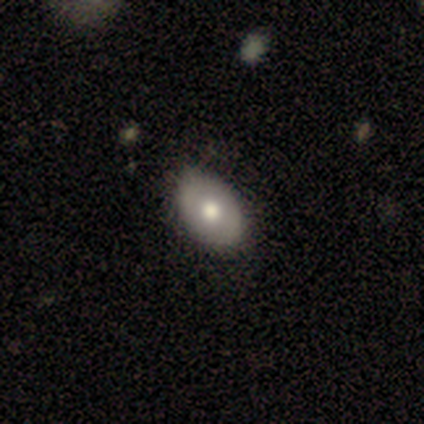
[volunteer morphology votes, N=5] Volunteers were most divided on "smooth or featured": smooth: 80%, featured or disk: 20%, star or artifact: 0%. More confident: how rounded — in between (100%); merging — none (100%).